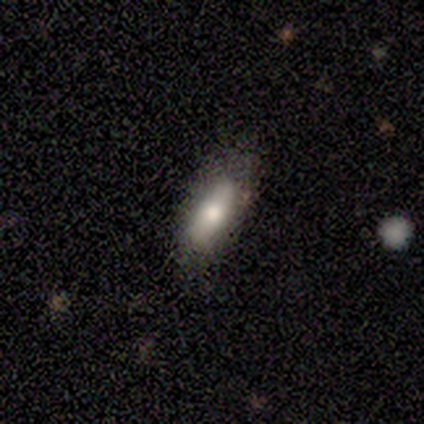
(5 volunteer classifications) smooth 80%, star or artifact 20%, featured or disk 0%. Down the decision tree: how rounded — in between (75%); merging — none (75%).